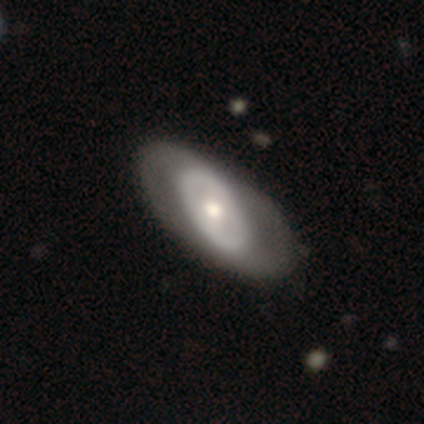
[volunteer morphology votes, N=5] smooth_or_featured: smooth (p=0.40) [tied with: featured or disk p=0.40]
how_rounded: round (p=0.50) [tied with: in between p=0.50]
merging: none (p=0.50) [alt: major disturbance p=0.25]